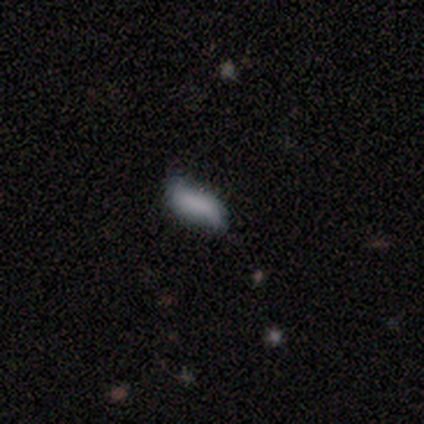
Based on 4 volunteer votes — This is clearly a smooth galaxy (100%). How rounded: possibly in between (50%, tied with cigar-shaped). Merging: clearly minor disturbance (100%).